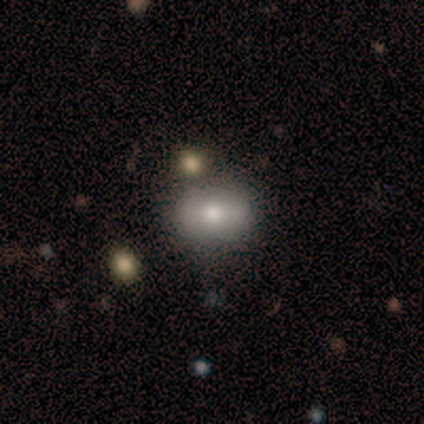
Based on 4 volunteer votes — A smooth galaxy with no disk features (100%) that is in between round and cigar-shaped (75%).

Vote fractions:
- Smooth or featured? smooth: 100% / featured or disk: 0% / star or artifact: 0%
- How rounded? in between: 75% / round: 25% / cigar-shaped: 0%
- Merging? none: 50% / major disturbance: 25% / merger: 25% / minor disturbance: 0%